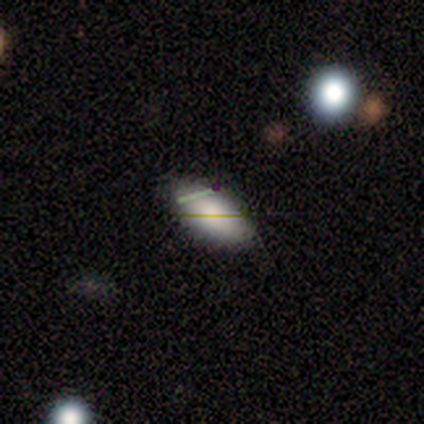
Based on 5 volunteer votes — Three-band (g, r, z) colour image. It shows a star or artifact, not a galaxy (60%).